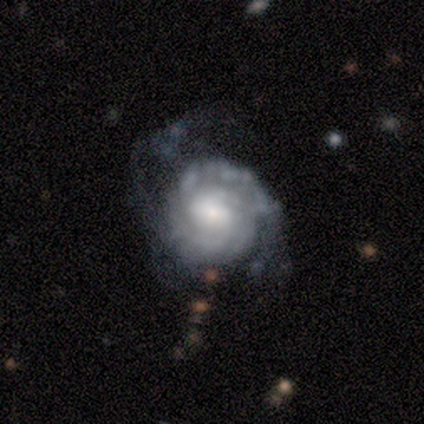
Q: Smooth or featured?
A: featured or disk (100%)
Q: Edge-on disk?
A: no (100%)
Q: Bar?
A: no (100%)
Q: Spiral arms?
A: yes (100%)
Q: Spiral winding?
A: tight (100%)
Q: Spiral arm count?
A: can't tell (60%); runner-up: 2 (40%)
Q: Bulge size?
A: large (40%); tied with: moderate (40%)
Q: Merging?
A: minor disturbance (60%); runner-up: none (20%)